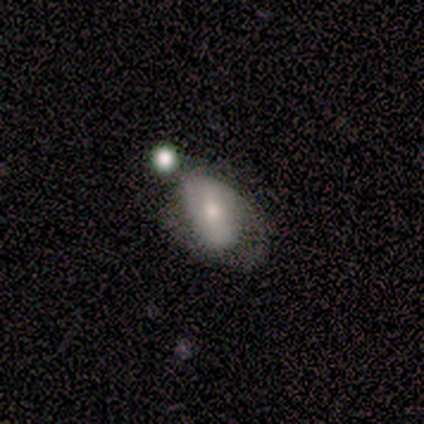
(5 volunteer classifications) Smooth or featured? 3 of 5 (60%) said featured or disk. Edge-on disk? 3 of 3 (100%) said no. Bar? 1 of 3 (33%, tied with weak and no) said strong. Spiral arms? 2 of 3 (67%) said no. Bulge size? 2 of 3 (67%) said moderate. Merging? 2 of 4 (50%) said minor disturbance.